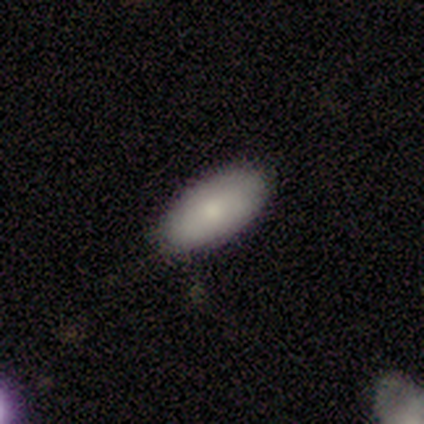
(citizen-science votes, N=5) A featured or disk galaxy (60%) with no bar (100%), no spiral arms (100%) and a moderate central bulge (67%).

Vote fractions:
- Smooth or featured? featured or disk: 60% / smooth: 40% / star or artifact: 0%
- Edge-on disk? no: 100% / yes: 0%
- Bar? no: 100% / strong: 0% / weak: 0%
- Spiral arms? no: 100% / yes: 0%
- Bulge size? moderate: 67% / small: 33% / dominant: 0% / large: 0% / none: 0%
- Merging? none: 80% / minor disturbance: 20% / major disturbance: 0% / merger: 0%